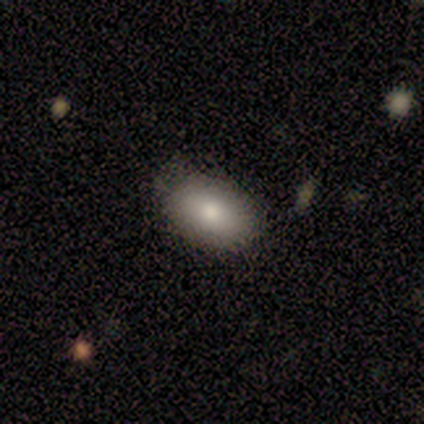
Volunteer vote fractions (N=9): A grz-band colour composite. It shows a smooth galaxy with no disk features (78%) that is in between round and cigar-shaped (100%). Merging: none (88%).